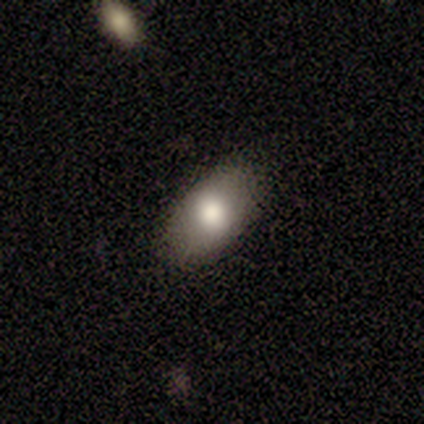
smooth 67%, featured or disk 33%, star or artifact 0%. Down the decision tree: how rounded — in between (100%); merging — minor disturbance (67%).